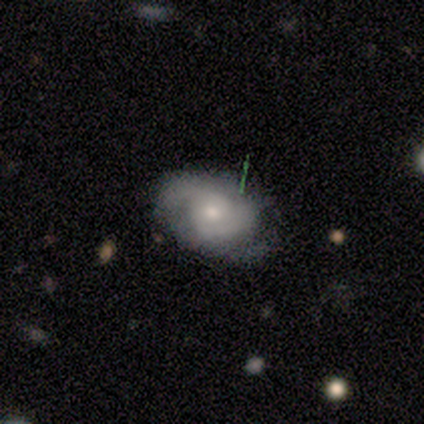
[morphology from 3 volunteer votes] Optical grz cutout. It shows a featured or disk galaxy (67%) with no bar (100%), tight (50%, tied with medium) spiral arms (100%) and a small central bulge (100%). Merging: minor disturbance (67%).